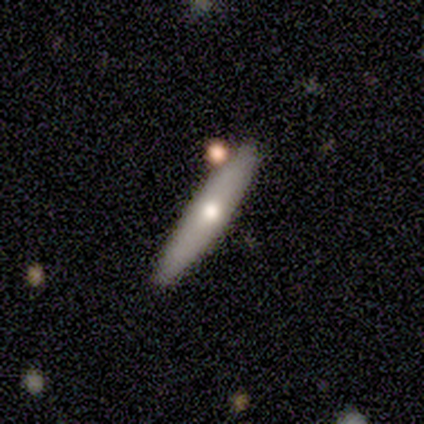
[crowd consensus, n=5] This is clearly a featured or disk galaxy (80%). It is clearly viewed edge-on (100%). Edge-on bulge: possibly none (50%, tied with rounded). Merging: clearly none (100%).